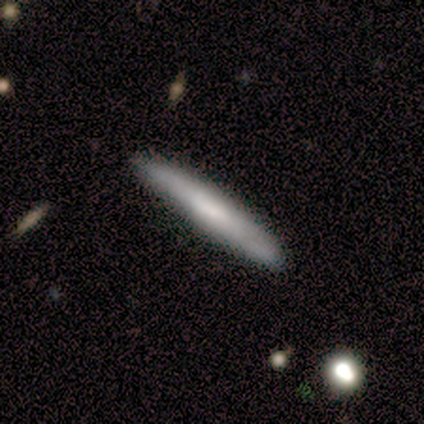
This is likely a smooth galaxy (60%). How rounded: clearly cigar-shaped (100%). Merging: clearly none (80%).